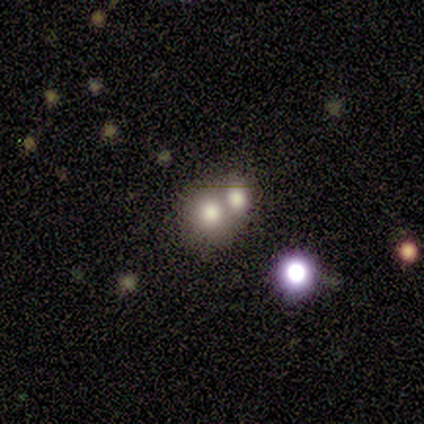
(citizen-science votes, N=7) smooth 86%, featured or disk 14%, star or artifact 0%. Down the decision tree: how rounded — round (83%); merging — merger (86%).